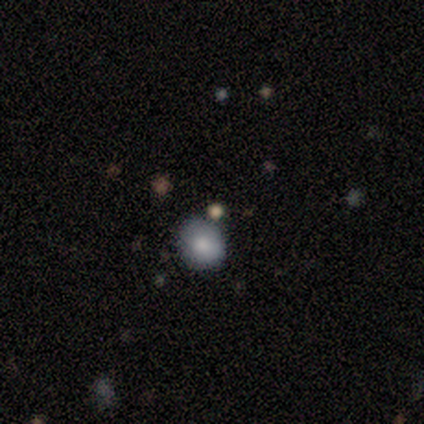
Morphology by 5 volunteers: Volunteers were most divided on "how rounded": round: 80%, in between: 20%, cigar-shaped: 0%. More confident: smooth or featured — smooth (100%); merging — none (100%).